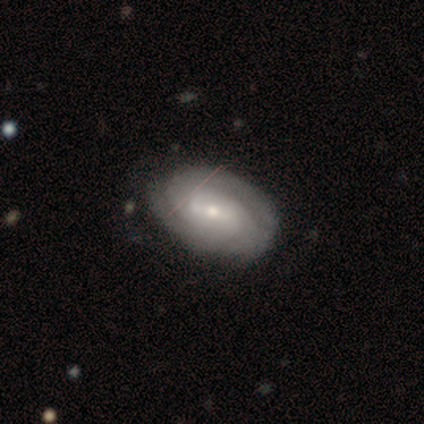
A featured or disk galaxy (100%) with a weak bar (80%), 3 (60%) tight (80%) spiral arms (100%) and a moderate central bulge (60%). Merging: none (60%).